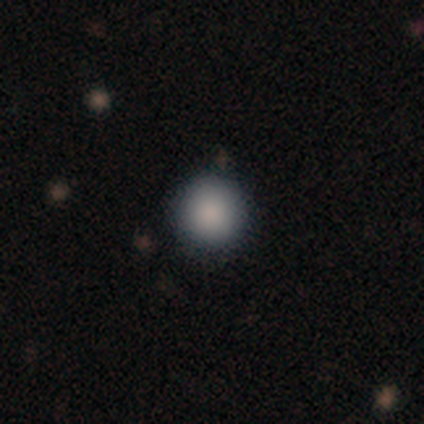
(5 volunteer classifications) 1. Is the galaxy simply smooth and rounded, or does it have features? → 80% smooth, 20% star or artifact, 0% featured or disk.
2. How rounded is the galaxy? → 100% round, 0% in between, 0% cigar-shaped.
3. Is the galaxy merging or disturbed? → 75% none, 25% minor disturbance, 0% major disturbance, 0% merger.